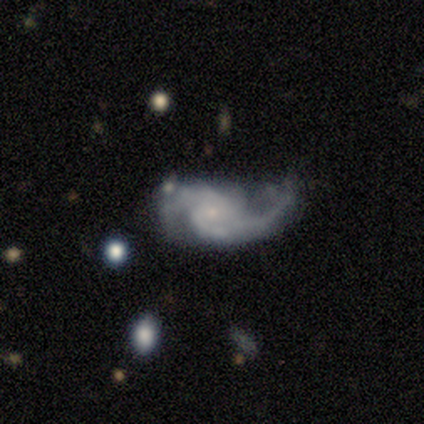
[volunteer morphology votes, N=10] featured or disk 90%, smooth 10%, star or artifact 0%. Down the decision tree: edge-on disk — no (89%); bar — weak (50%, tied with no); spiral arms — yes (88%); spiral arm count — 2 (71%); spiral winding — loose (71%); bulge size — small (75%); merging — none (40%).